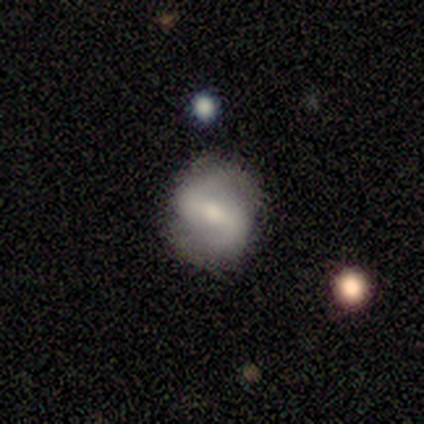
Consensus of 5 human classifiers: smooth_or_featured: featured or disk (p=0.80) [alt: smooth p=0.20]
disk_edge_on: no (p=1.00)
bar: strong (p=0.75) [alt: weak p=0.25]
has_spiral_arms: yes (p=1.00)
spiral_winding: medium (p=0.50) [tied with: loose p=0.50]
spiral_arm_count: 2 (p=1.00)
bulge_size: moderate (p=0.50) [tied with: small p=0.50]
merging: none (p=0.80) [alt: minor disturbance p=0.20]